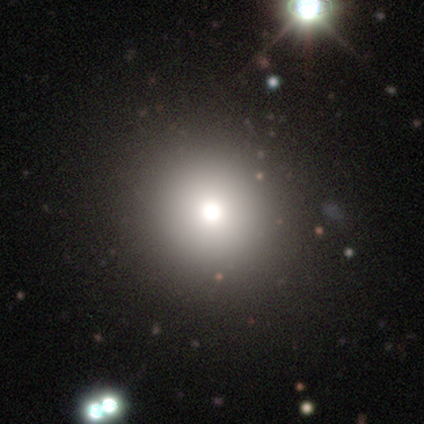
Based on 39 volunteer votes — Overall: smooth (77%). How rounded: round (90%). Merging: none (66%).